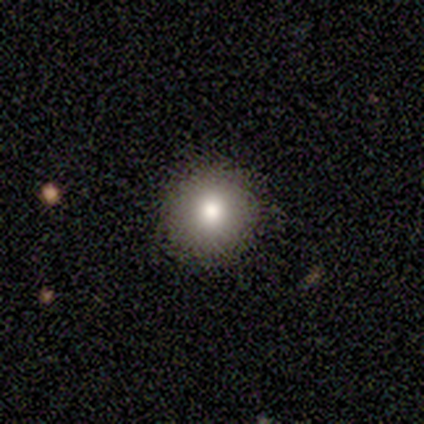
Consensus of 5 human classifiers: Smooth or featured? smooth (80%)
How rounded? round (100%)
Merging? none (75%)